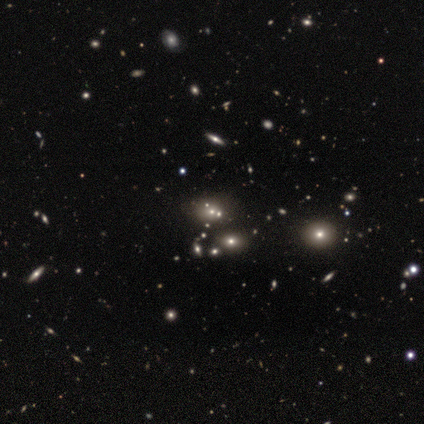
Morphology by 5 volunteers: A smooth galaxy with no disk features (60%) that is in between round and cigar-shaped (100%). Merging: none (75%).